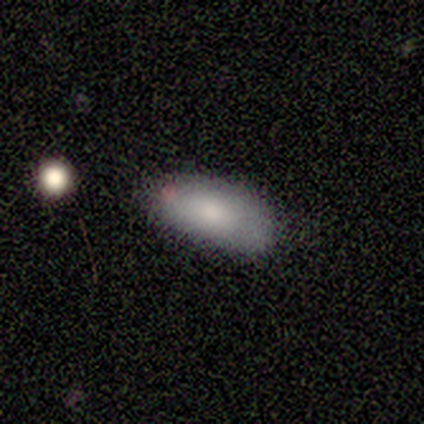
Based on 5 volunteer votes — smooth_or_featured: smooth (p=0.80) [alt: featured or disk p=0.20]
how_rounded: in between (p=1.00)
merging: none (p=1.00)